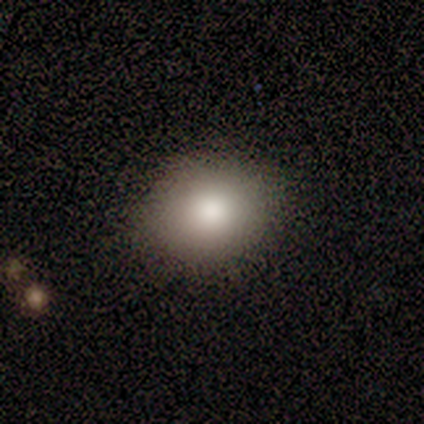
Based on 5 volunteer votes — Smooth or featured? 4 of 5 (80%) said smooth. How rounded? 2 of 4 (50%, tied with in between) said round. Merging? 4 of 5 (80%) said none.